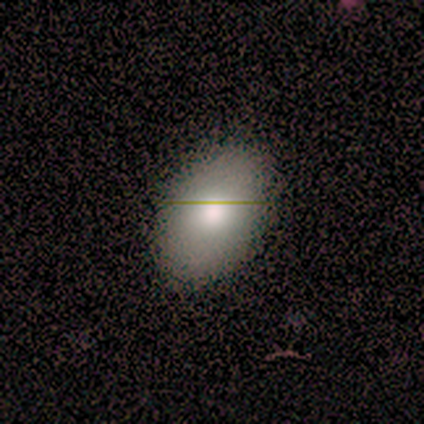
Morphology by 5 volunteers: Smooth or featured? 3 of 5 (60%) said smooth. How rounded? 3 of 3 (100%) said in between. Merging? 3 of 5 (60%) said none.